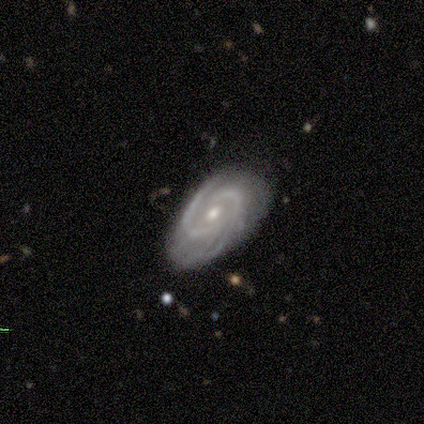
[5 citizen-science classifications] Q: Smooth or featured?
A: featured or disk (100%)
Q: Edge-on disk?
A: no (100%)
Q: Bar?
A: no (80%); runner-up: weak (20%)
Q: Spiral arms?
A: yes (100%)
Q: Spiral winding?
A: tight (40%); tied with: medium (40%)
Q: Spiral arm count?
A: 2 (80%); runner-up: 3 (20%)
Q: Bulge size?
A: moderate (60%); runner-up: small (40%)
Q: Merging?
A: none (100%)